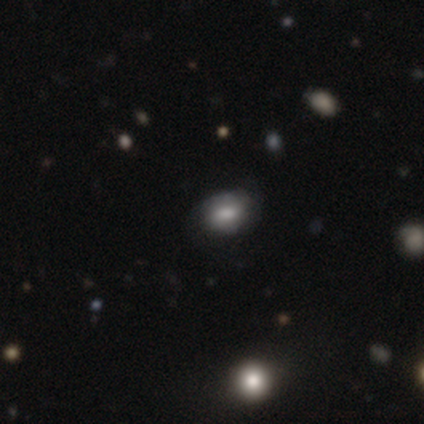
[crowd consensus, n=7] smooth 71%, featured or disk 14%, star or artifact 14%. Down the decision tree: how rounded — in between (100%); merging — none (67%).